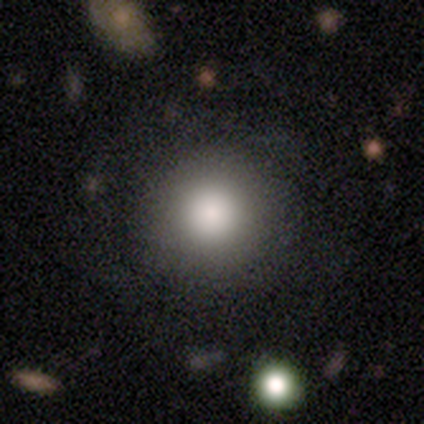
Smooth or featured?
  - smooth: 89% *
  - featured or disk: 8%
  - star or artifact: 3%
How rounded?
  - round: 97% *
  - in between: 3%
  - cigar-shaped: 0%
Merging?
  - none: 89% *
  - minor disturbance: 5%
  - major disturbance: 5%
  - merger: 0%